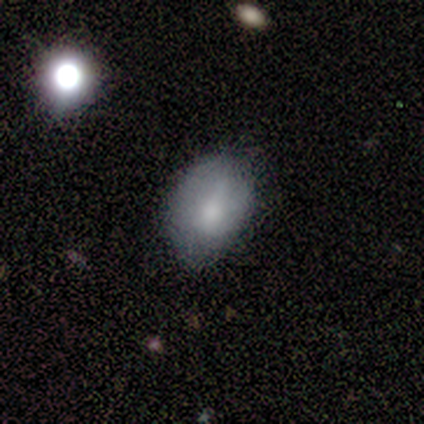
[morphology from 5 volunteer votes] Volunteers were most divided on "merging": none: 80%, minor disturbance: 20%, major disturbance: 0%, merger: 0%. More confident: smooth or featured — smooth (100%); how rounded — in between (100%).